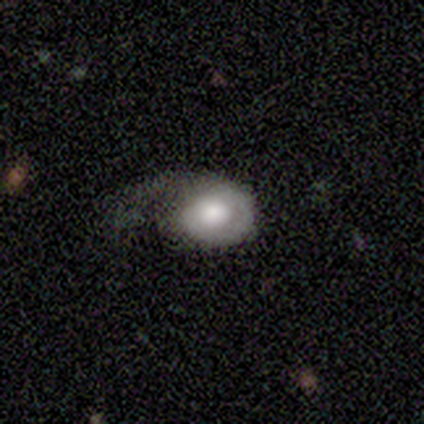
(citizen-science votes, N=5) smooth-or-featured: smooth: 60% | featured or disk: 20% | star or artifact: 20%
  how-rounded: in between: 67% | round: 33% | cigar-shaped: 0%
  merging: minor disturbance: 50% | none: 25% | major disturbance: 25% | merger: 0%